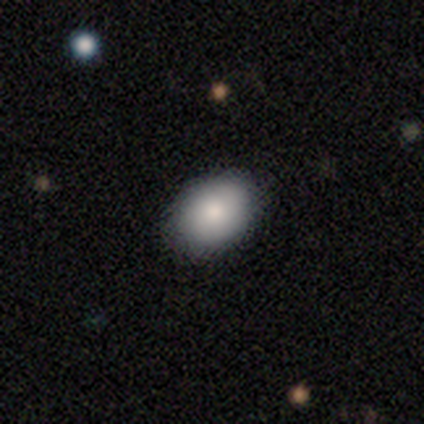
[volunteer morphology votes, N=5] This is clearly a smooth galaxy (80%). How rounded: likely in between (75%). Merging: likely none (60%).